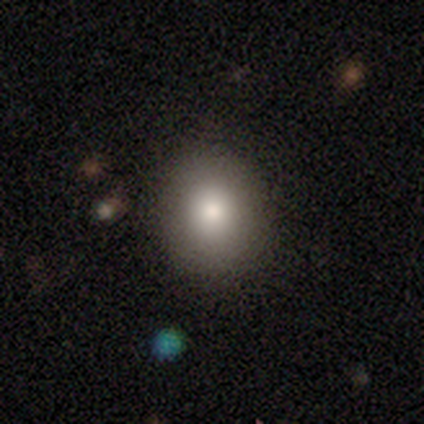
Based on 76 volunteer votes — smooth-or-featured: smooth: 86% | star or artifact: 9% | featured or disk: 5%
  how-rounded: round: 78% | in between: 22% | cigar-shaped: 0%
  merging: none: 58% | minor disturbance: 1% | merger: 1% | major disturbance: 0%